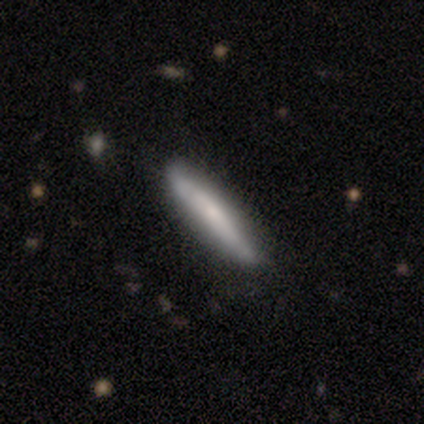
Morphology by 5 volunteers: smooth-or-featured: featured or disk: 60% | smooth: 40% | star or artifact: 0%
  disk-edge-on: yes: 100% | no: 0%
    edge-on-bulge: none: 67% | rounded: 33% | boxy: 0%
  merging: none: 80% | minor disturbance: 20% | major disturbance: 0% | merger: 0%